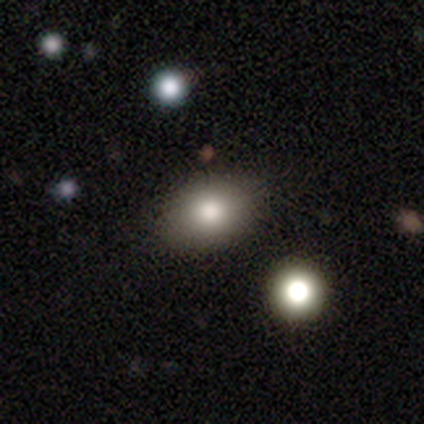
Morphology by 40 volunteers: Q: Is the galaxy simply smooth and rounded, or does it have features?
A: smooth — 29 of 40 (72%).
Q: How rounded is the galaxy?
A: in between — 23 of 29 (79%).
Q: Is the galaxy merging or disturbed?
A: none — 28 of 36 (78%).